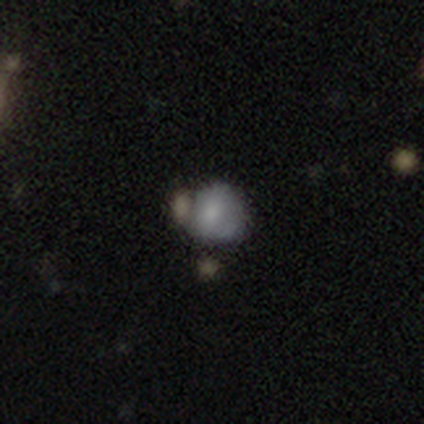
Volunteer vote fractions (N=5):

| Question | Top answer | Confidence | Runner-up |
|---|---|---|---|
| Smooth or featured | smooth | 60% | featured or disk (20%) |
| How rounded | round | 67% | in between (33%) |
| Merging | none | 50% | major disturbance (25%) |